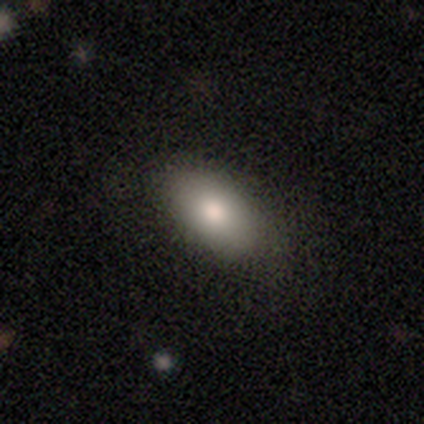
Smooth or featured? 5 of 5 (100%) said smooth. How rounded? 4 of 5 (80%) said in between. Merging? 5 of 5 (100%) said none.